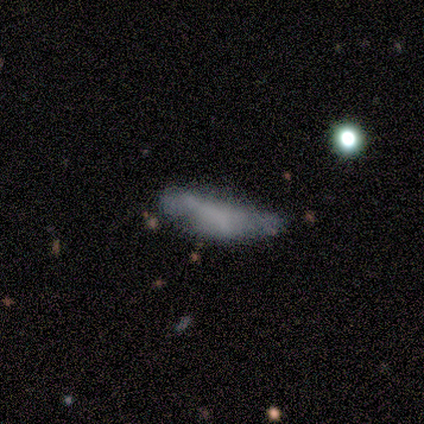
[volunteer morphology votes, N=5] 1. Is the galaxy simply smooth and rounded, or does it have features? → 40% smooth (tied), 40% featured or disk (tied), 20% star or artifact.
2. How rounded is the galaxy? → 50% in between (tied), 50% cigar-shaped (tied), 0% round.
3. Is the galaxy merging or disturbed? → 50% none (tied), 50% major disturbance (tied), 0% minor disturbance, 0% merger.